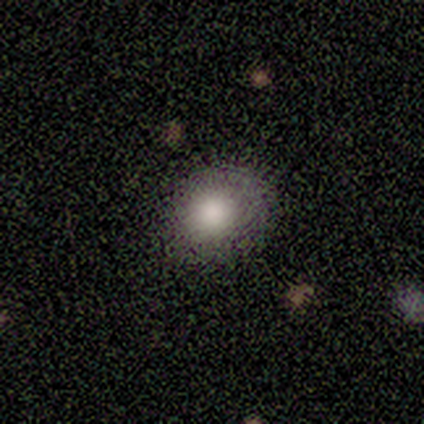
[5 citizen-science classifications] A smooth galaxy with no disk features (100%) that is round (100%). Merging: none (100%).